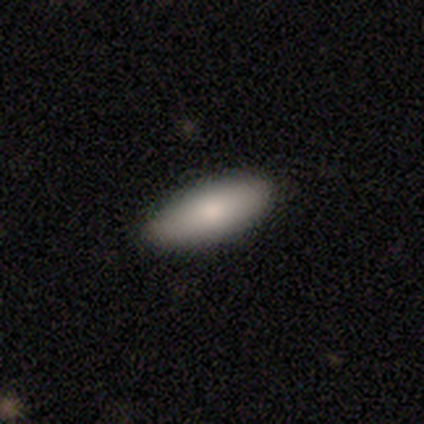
A smooth galaxy with no disk features (86%) that is in between round and cigar-shaped (71%). Merging: none (85%).